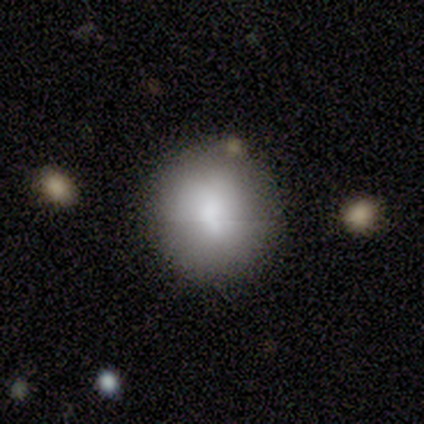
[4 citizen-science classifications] smooth-or-featured: smooth: 100% | featured or disk: 0% | star or artifact: 0%
  how-rounded: round: 100% | in between: 0% | cigar-shaped: 0%
  merging: none: 75% | merger: 25% | minor disturbance: 0% | major disturbance: 0%